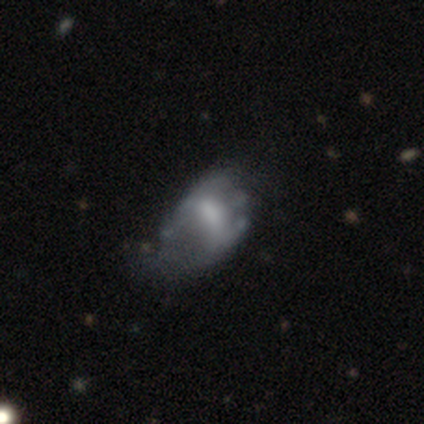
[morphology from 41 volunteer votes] featured or disk 59%, smooth 39%, star or artifact 2%. Down the decision tree: edge-on disk — no (100%); bar — no (42%); spiral arms — no (92%); bulge size — small (38%); merging — major disturbance (52%).